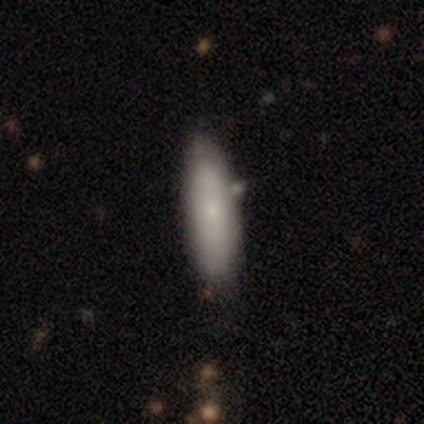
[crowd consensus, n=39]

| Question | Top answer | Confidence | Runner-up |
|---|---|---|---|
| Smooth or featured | smooth | 77% | featured or disk (21%) |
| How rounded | in between | 67% | cigar-shaped (33%) |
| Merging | none | 58% | merger (16%) |